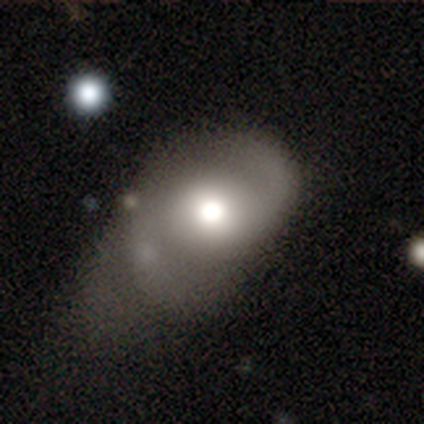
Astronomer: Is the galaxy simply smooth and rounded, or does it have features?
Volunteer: featured or disk — 59% (runner-up: smooth, 35%).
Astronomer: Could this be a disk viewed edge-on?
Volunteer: no — 100%.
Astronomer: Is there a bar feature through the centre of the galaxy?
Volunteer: no — 69%.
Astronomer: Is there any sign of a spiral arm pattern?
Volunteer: yes — 93%.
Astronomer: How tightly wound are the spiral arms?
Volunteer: loose — 56% (runner-up: medium, 33%).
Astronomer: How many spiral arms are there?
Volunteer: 2 — 93%.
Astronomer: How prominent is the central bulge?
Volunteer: moderate — 72%.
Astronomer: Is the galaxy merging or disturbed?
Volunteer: minor disturbance — 48% (runner-up: major disturbance, 35%).